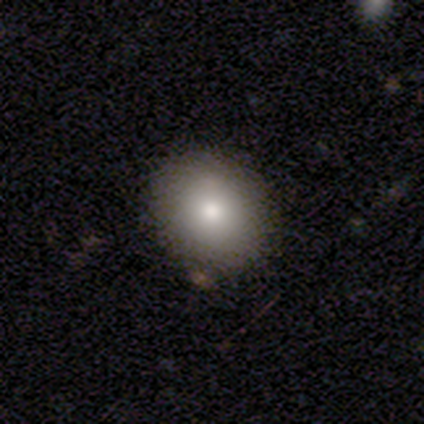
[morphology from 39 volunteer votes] This is clearly a smooth galaxy (82%). How rounded: likely round (72%). Merging: clearly none (89%).